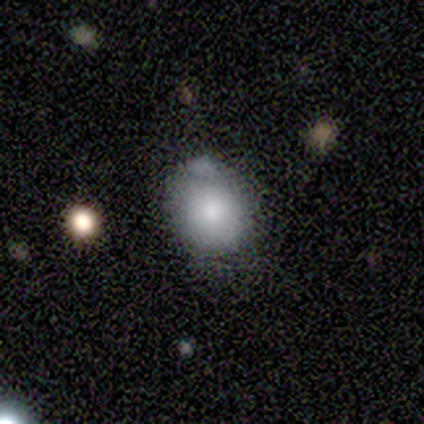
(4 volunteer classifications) smooth-or-featured: smooth: 100% | featured or disk: 0% | star or artifact: 0%
  how-rounded: round: 100% | in between: 0% | cigar-shaped: 0%
  merging: none: 50% (tied) | minor disturbance: 50% (tied) | major disturbance: 0% | merger: 0%